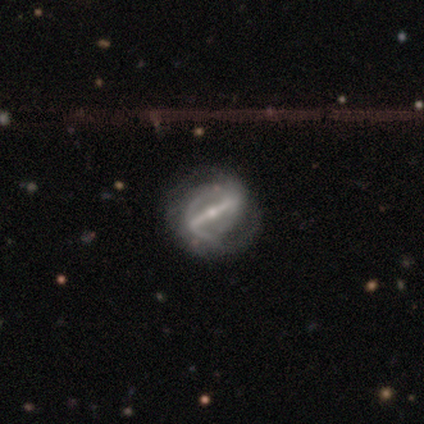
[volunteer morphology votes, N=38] Smooth or featured? 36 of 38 (95%) said featured or disk. Edge-on disk? 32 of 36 (89%) said no. Bar? 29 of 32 (91%) said strong. Spiral arms? 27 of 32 (84%) said yes. Spiral winding? 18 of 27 (67%) said medium. Spiral arm count? 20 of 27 (74%) said 2. Bulge size? 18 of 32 (56%) said small. Merging? 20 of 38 (53%) said none.